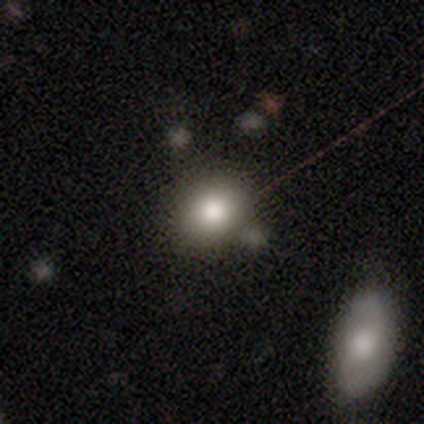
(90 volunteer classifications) This is likely a smooth galaxy (67%). How rounded: likely round (78%). Merging: likely none (62%).